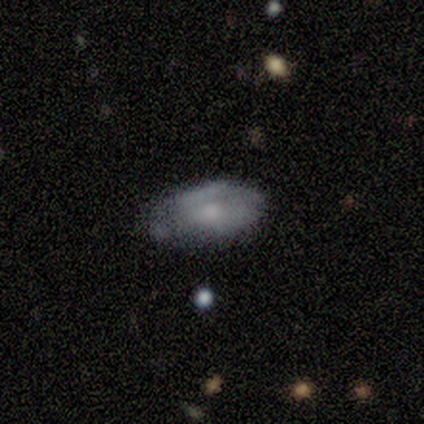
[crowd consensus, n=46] Morphology: type=featured or disk (54%); edge-on=no (96%); bar=no (88%); spiral arms=no (67%); bulge=moderate (46%); merging=none (48%).